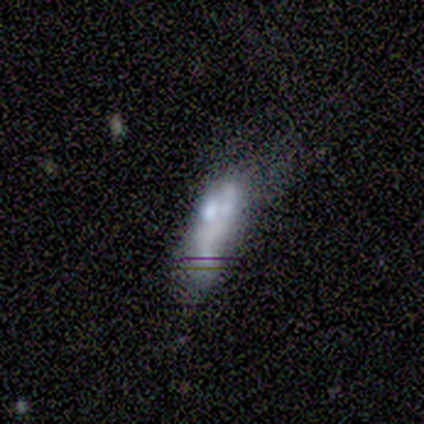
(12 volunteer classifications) This is possibly a featured or disk galaxy (50%). It is clearly not viewed edge-on (100%). Bar: likely no (67%). Spiral arm pattern: clearly no (100%). Central bulge: marginally large (33%, tied with none). Merging: marginally major disturbance (40%).